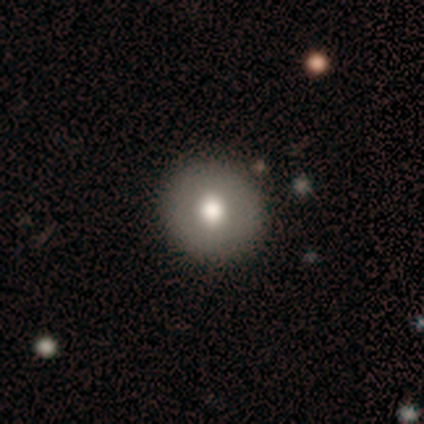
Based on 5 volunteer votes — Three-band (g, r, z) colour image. It shows a smooth galaxy with no disk features (60%) that is round (100%). Merging: none (100%).